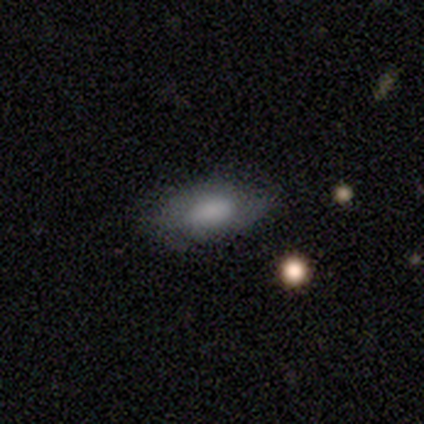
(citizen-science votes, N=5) Smooth or featured? 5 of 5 (100%) said smooth. How rounded? 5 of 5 (100%) said in between. Merging? 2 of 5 (40%, tied with minor disturbance) said none.